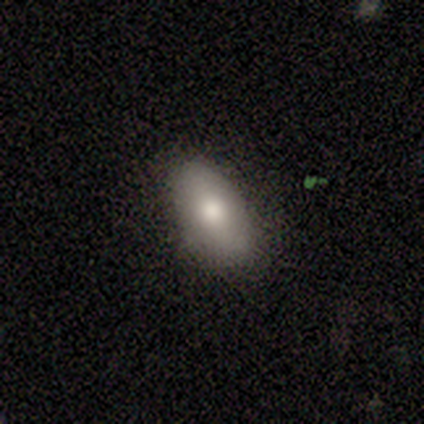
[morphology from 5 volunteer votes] Smooth or featured? 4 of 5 (80%) said smooth. How rounded? 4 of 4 (100%) said in between. Merging? 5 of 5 (100%) said none.